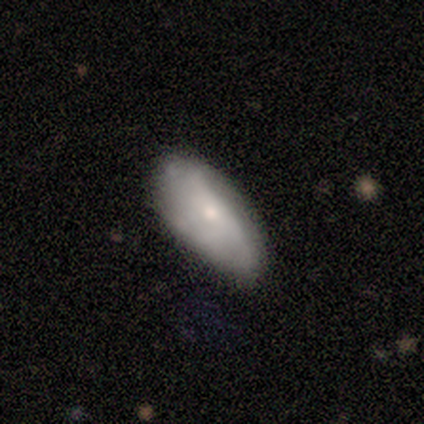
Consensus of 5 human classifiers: smooth_or_featured: smooth (p=1.00)
how_rounded: in between (p=0.80) [alt: cigar-shaped p=0.20]
merging: none (p=0.80) [alt: minor disturbance p=0.20]